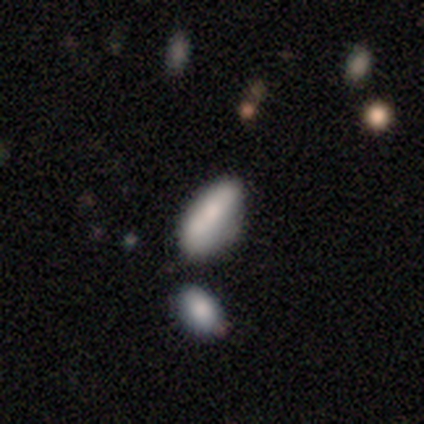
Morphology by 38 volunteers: Volunteers were most divided on "merging": none: 51%, minor disturbance: 23%, merger: 17%, major disturbance: 9%. More confident: how rounded — in between (71%); smooth or featured — smooth (63%).